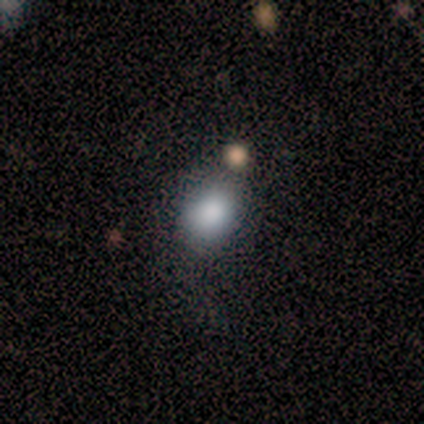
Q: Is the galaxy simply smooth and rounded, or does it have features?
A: smooth — 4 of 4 (100%).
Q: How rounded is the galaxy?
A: round — 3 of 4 (75%).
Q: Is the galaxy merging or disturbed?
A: none — 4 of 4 (100%).